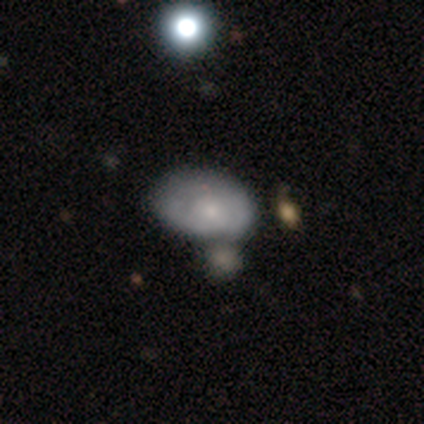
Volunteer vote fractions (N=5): Volunteers were most divided on "spiral arms" (2-way tie): yes: 50%, no: 50%; "spiral winding" (2-way tie): tight: 50%, medium: 50%, loose: 0%; "spiral arm count" (2-way tie): 2: 50%, 3: 50%, 1: 0%, 4: 0%, more than 4: 0%, can't tell: 0%; "bulge size" (2-way tie): moderate: 50%, small: 50%, dominant: 0%, large: 0%, none: 0%; "merging" (2-way tie): none: 40%, minor disturbance: 40%, major disturbance: 20%, merger: 0%. More confident: edge-on disk — no (100%); bar — no (100%); smooth or featured — featured or disk (80%).